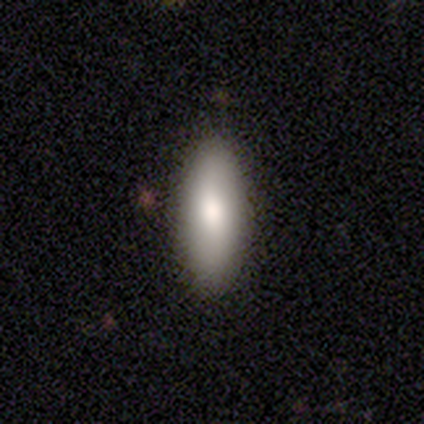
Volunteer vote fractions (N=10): smooth_or_featured: smooth (p=0.90) [alt: featured or disk p=0.10]
how_rounded: in between (p=0.78) [alt: cigar-shaped p=0.22]
merging: none (p=1.00)